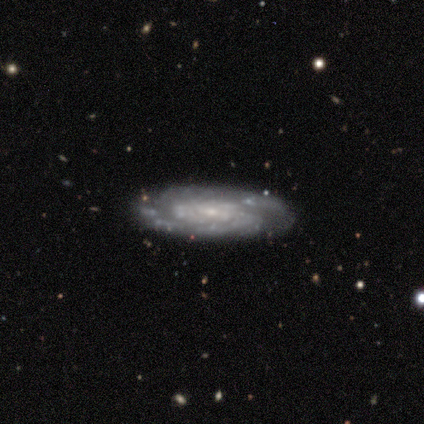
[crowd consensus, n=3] This appears to be a featured or disk galaxy (100%) with a strong bar (33%, tied with weak and no), 2 (67%) medium (67%) spiral arms (100%) and a small central bulge (67%). Merging: none (67%).